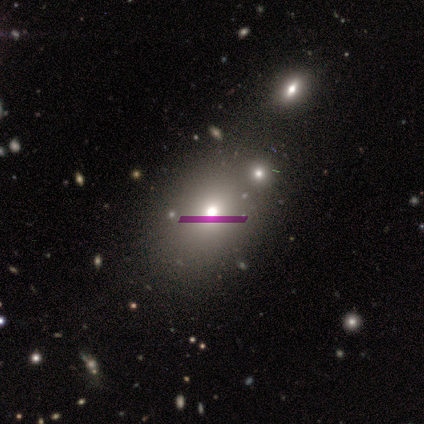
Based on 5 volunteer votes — Morphology: type=smooth (60%); roundness=in between (67%); merging=none (67%).